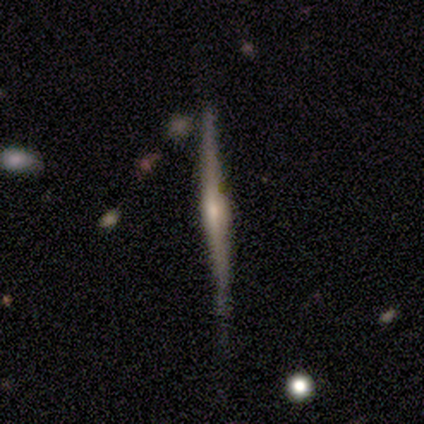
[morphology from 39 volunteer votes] featured or disk 77%, smooth 21%, star or artifact 3%. Down the decision tree: edge-on disk — yes (97%); edge-on bulge — rounded (72%); merging — none (71%).